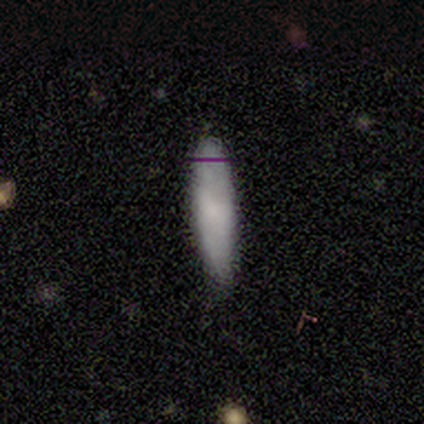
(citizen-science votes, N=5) Q: Smooth or featured?
A: smooth (80%); runner-up: star or artifact (20%)
Q: How rounded?
A: cigar-shaped (100%)
Q: Merging?
A: none (100%)